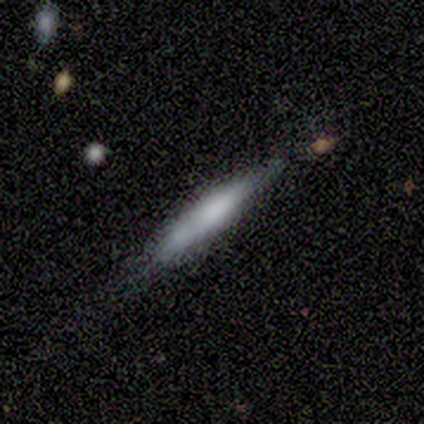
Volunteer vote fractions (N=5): smooth-or-featured: smooth: 100% | featured or disk: 0% | star or artifact: 0%
  how-rounded: cigar-shaped: 100% | round: 0% | in between: 0%
  merging: minor disturbance: 60% | none: 40% | major disturbance: 0% | merger: 0%